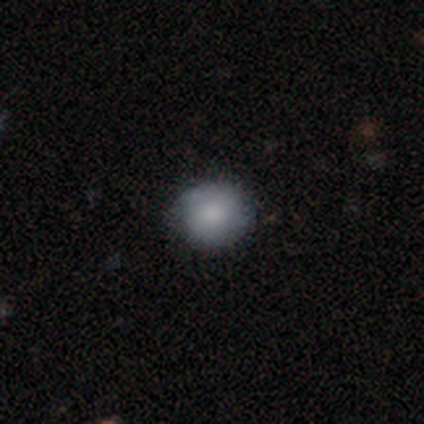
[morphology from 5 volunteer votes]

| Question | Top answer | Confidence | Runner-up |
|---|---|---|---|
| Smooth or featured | smooth | 80% | star or artifact (20%) |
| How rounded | round | 100% | — |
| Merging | none | 50% | tied: minor disturbance (50%) |